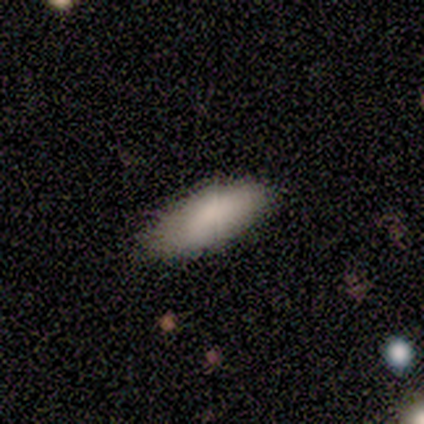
Smooth or featured? 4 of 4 (100%) said smooth. How rounded? 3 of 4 (75%) said in between. Merging? 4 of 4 (100%) said none.